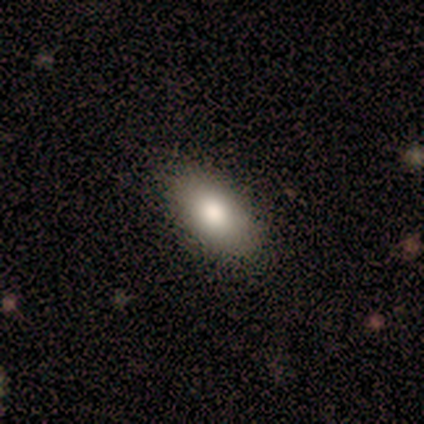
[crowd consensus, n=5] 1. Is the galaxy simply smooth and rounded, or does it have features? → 100% smooth, 0% featured or disk, 0% star or artifact.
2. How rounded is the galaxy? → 100% in between, 0% round, 0% cigar-shaped.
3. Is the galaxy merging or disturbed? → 80% none, 20% minor disturbance, 0% major disturbance, 0% merger.